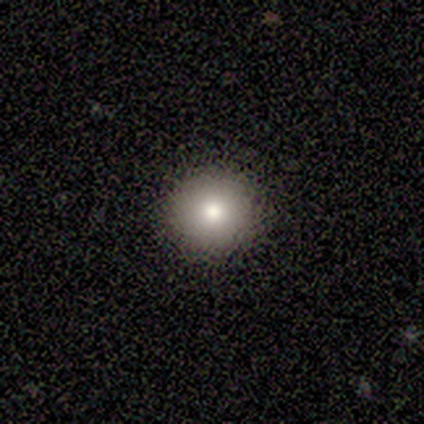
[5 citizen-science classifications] Smooth or featured: smooth — 80% (star or artifact — 20%)
How rounded: round — 100%
Merging: none — 100%